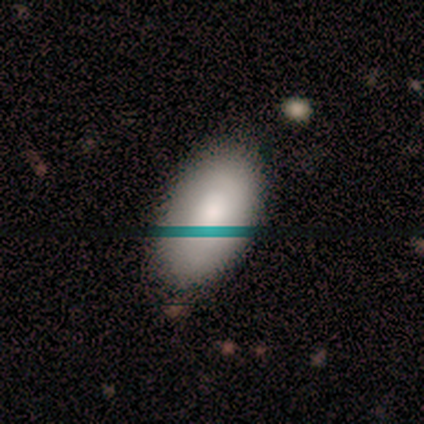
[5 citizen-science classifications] Smooth or featured? 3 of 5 (60%) said smooth. How rounded? 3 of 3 (100%) said in between. Merging? 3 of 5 (60%) said none.